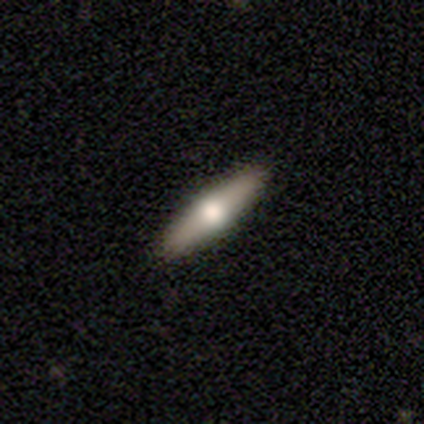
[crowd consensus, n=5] A smooth galaxy with no disk features (60%) that is in between round and cigar-shaped (100%).

Vote fractions:
- Smooth or featured? smooth: 60% / featured or disk: 40% / star or artifact: 0%
- How rounded? in between: 100% / round: 0% / cigar-shaped: 0%
- Merging? none: 100% / minor disturbance: 0% / major disturbance: 0% / merger: 0%